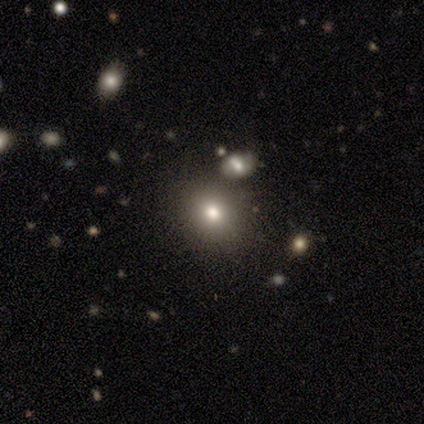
smooth-or-featured: smooth: 80% | star or artifact: 20% | featured or disk: 0%
  how-rounded: round: 50% (tied) | in between: 50% (tied) | cigar-shaped: 0%
  merging: none: 100% | minor disturbance: 0% | major disturbance: 0% | merger: 0%